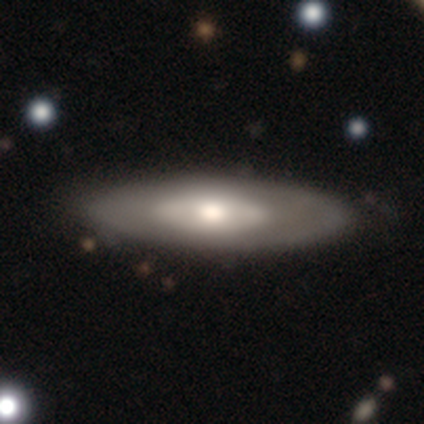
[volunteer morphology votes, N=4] smooth 50% (tied), featured or disk 50% (tied), star or artifact 0%. Down the decision tree: how rounded — in between (100%); merging — none (100%).